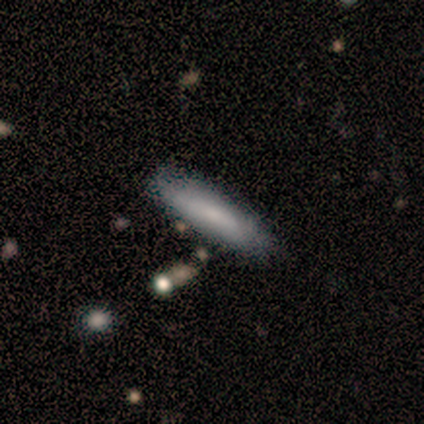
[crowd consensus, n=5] Q: Smooth or featured?
A: smooth (80%); runner-up: featured or disk (20%)
Q: How rounded?
A: cigar-shaped (75%); runner-up: in between (25%)
Q: Merging?
A: none (80%); runner-up: minor disturbance (20%)